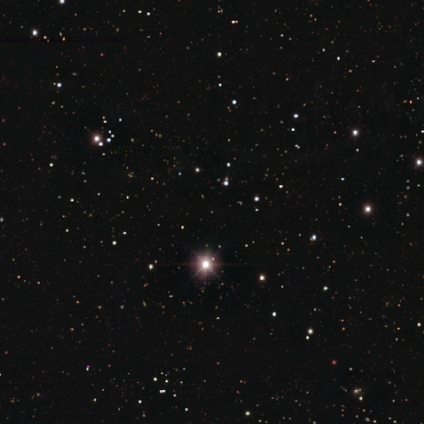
This is clearly a star or artifact rather than a galaxy (95%).